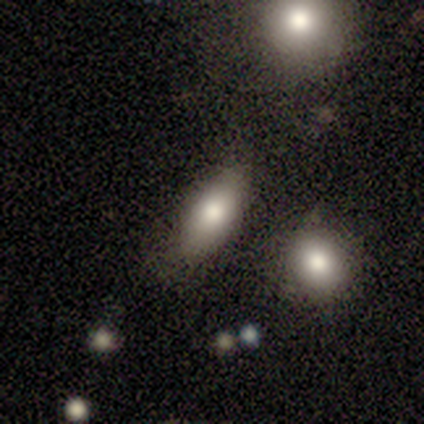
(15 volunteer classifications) This is clearly a smooth galaxy (80%). How rounded: clearly in between (100%). Merging: likely none (60%).